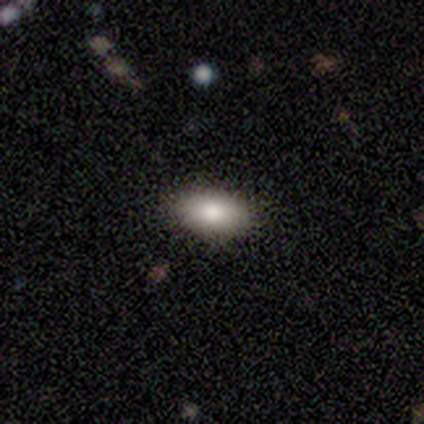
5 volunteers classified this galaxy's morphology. smooth-or-featured: smooth: 100% | featured or disk: 0% | star or artifact: 0%
  how-rounded: in between: 100% | round: 0% | cigar-shaped: 0%
  merging: none: 80% | minor disturbance: 20% | major disturbance: 0% | merger: 0%